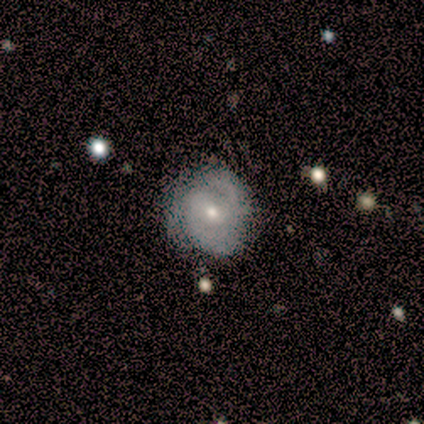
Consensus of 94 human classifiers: Smooth or featured? 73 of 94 (78%) said featured or disk. Edge-on disk? 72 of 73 (99%) said no. Bar? 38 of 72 (53%) said no. Spiral arms? 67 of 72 (93%) said yes. Spiral winding? 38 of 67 (57%) said tight. Spiral arm count? 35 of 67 (52%) said 2. Bulge size? 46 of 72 (64%) said small. Merging? 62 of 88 (70%) said none.